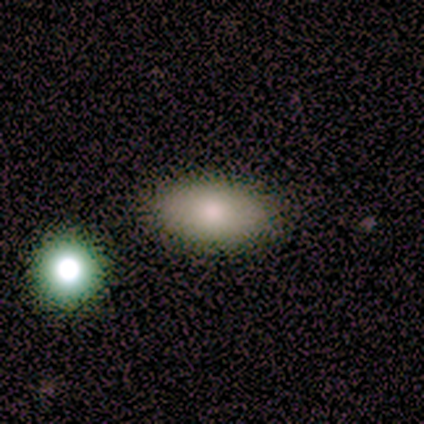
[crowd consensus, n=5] Smooth or featured?
  - smooth: 100% *
  - featured or disk: 0%
  - star or artifact: 0%
How rounded?
  - in between: 100% *
  - round: 0%
  - cigar-shaped: 0%
Merging?
  - none: 100% *
  - minor disturbance: 0%
  - major disturbance: 0%
  - merger: 0%